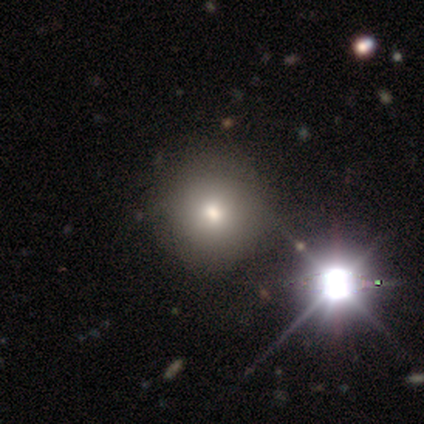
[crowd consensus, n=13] Overall: smooth (69%; star or artifact 31%). How rounded: round (89%). Merging: none (89%).